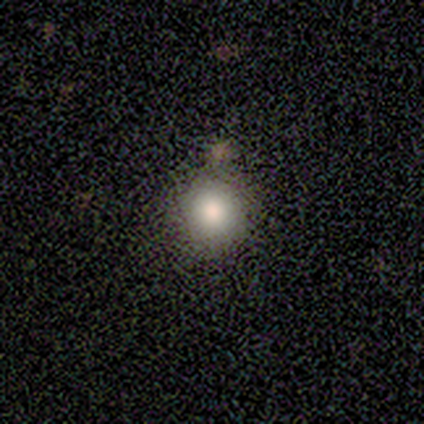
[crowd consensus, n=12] smooth-or-featured: smooth: 67% | star or artifact: 25% | featured or disk: 8%
  how-rounded: round: 88% | in between: 12% | cigar-shaped: 0%
  merging: none: 78% | minor disturbance: 22% | major disturbance: 0% | merger: 0%